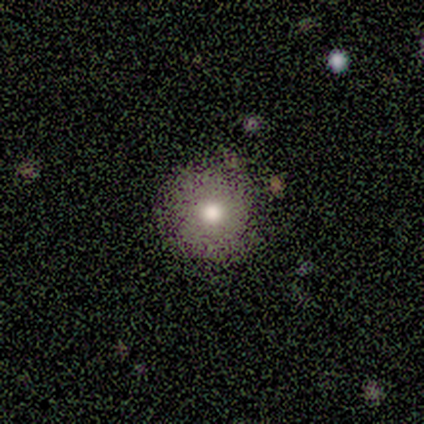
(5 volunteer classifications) Smooth or featured?
  - featured or disk: 60% *
  - smooth: 40%
  - star or artifact: 0%
Edge-on disk?
  - no: 67% *
  - yes: 33%
Bar?
  - no: 100% *
  - strong: 0%
  - weak: 0%
Spiral arms?
  - no: 100% *
  - yes: 0%
Bulge size?
  - large: 100% *
  - dominant: 0%
  - moderate: 0%
  - small: 0%
  - none: 0%
Merging?
  - none: 80% *
  - major disturbance: 20%
  - minor disturbance: 0%
  - merger: 0%